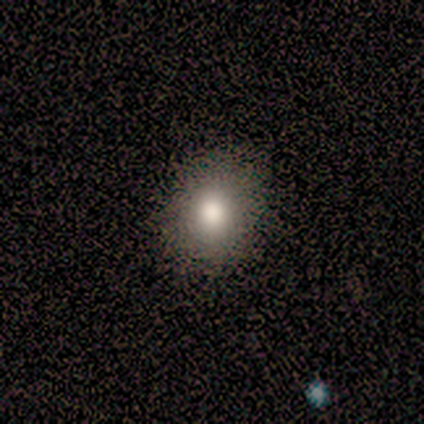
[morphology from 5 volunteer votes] smooth 80%, star or artifact 20%, featured or disk 0%. Down the decision tree: how rounded — round (100%); merging — none (100%).